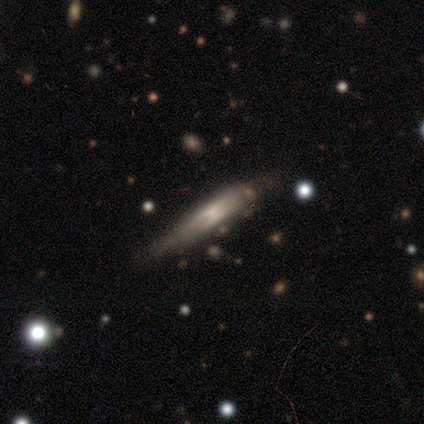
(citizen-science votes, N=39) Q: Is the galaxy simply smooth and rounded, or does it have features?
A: featured or disk — 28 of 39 (72%).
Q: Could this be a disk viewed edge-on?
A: yes — 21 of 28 (75%).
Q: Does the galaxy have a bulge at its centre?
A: boxy — 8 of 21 (38%).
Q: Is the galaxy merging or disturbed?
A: none — 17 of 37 (46%).